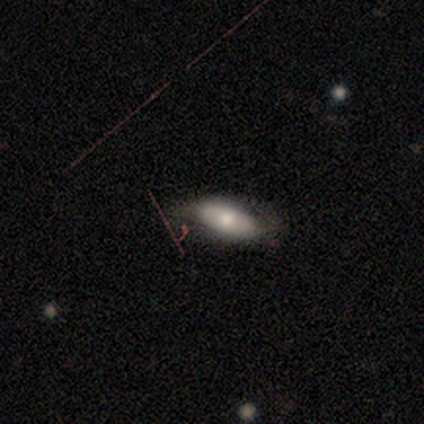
smooth_or_featured: featured or disk (p=0.60) [alt: smooth p=0.40]
disk_edge_on: yes (p=0.67) [alt: no p=0.33]
edge_on_bulge: rounded (p=1.00)
merging: none (p=0.80) [alt: major disturbance p=0.20]